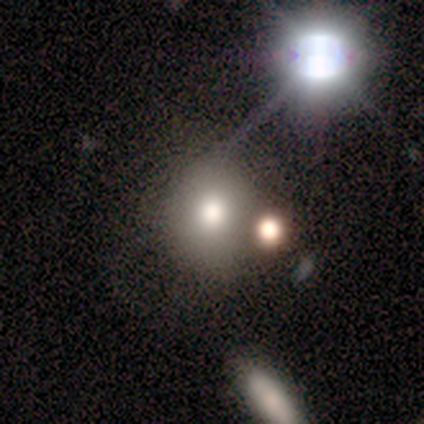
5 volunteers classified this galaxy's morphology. Overall: smooth (80%). How rounded: round (100%). Merging: major disturbance (60%; none 40%).